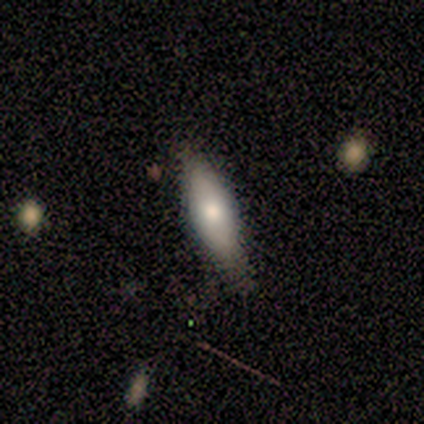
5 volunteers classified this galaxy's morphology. This is marginally a smooth galaxy (40%, tied with featured or disk). How rounded: possibly in between (50%, tied with cigar-shaped). Merging: possibly none (50%, tied with minor disturbance).